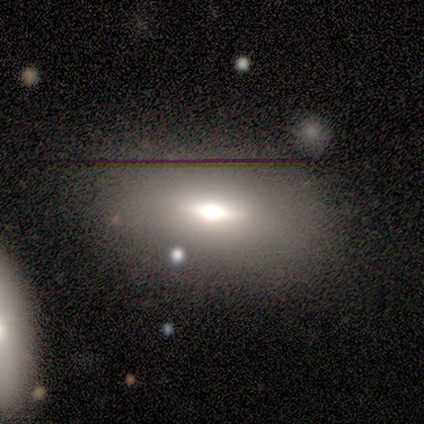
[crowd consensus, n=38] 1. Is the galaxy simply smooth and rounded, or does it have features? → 61% smooth, 29% featured or disk, 11% star or artifact.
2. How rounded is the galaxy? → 87% in between, 9% cigar-shaped, 4% round.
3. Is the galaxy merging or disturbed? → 71% none, 18% minor disturbance, 12% merger, 0% major disturbance.